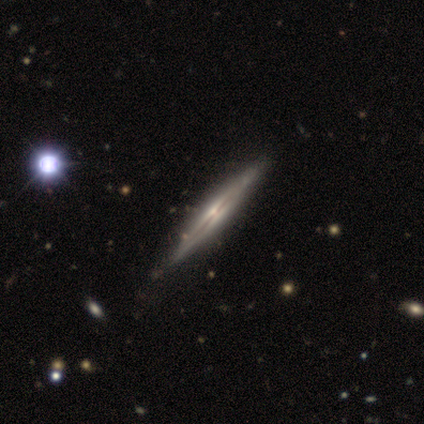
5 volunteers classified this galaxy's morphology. featured or disk 40% (tied), star or artifact 40% (tied), smooth 20%. Down the decision tree: edge-on disk — yes (100%); edge-on bulge — none (50%, tied with rounded); merging — none (100%).